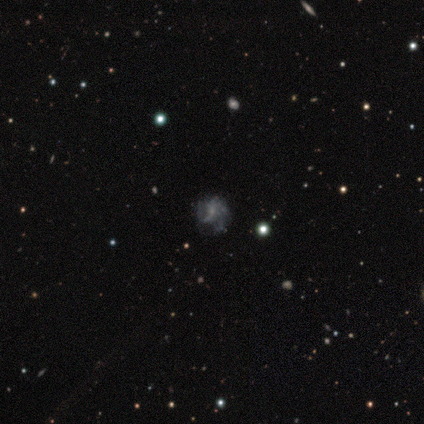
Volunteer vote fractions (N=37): A featured or disk galaxy (51%) with no bar (89%), loose (55%) spiral arms (61%) and a small central bulge (50%). Merging: none (61%).